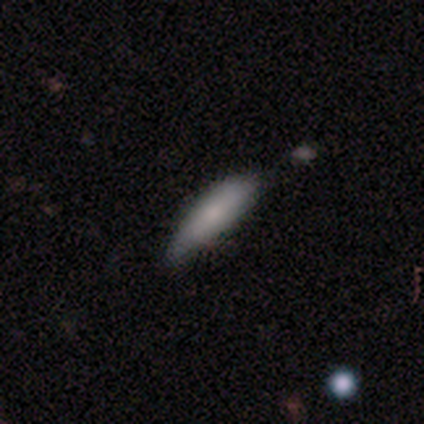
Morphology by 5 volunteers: Overall: smooth (80%). How rounded: cigar-shaped (75%). Merging: none (60%; minor disturbance 40%).